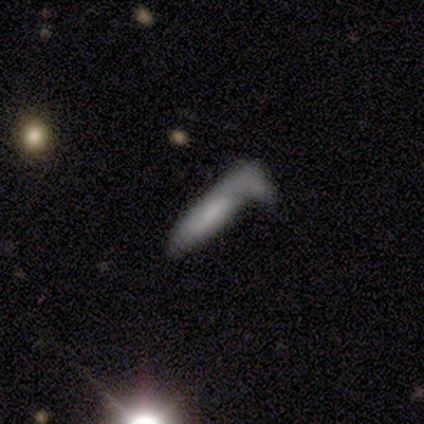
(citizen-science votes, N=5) smooth-or-featured: smooth: 80% | featured or disk: 20% | star or artifact: 0%
  how-rounded: cigar-shaped: 100% | round: 0% | in between: 0%
  merging: none: 40% (tied) | merger: 40% (tied) | major disturbance: 20% | minor disturbance: 0%